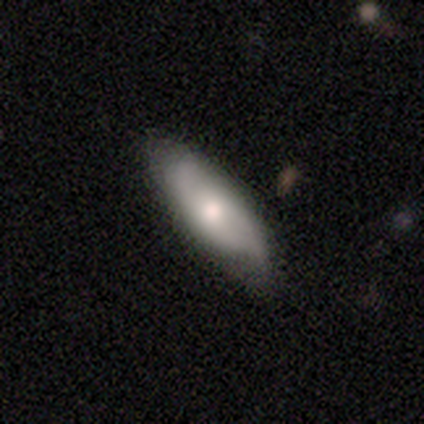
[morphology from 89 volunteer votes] Overall: smooth (51%; featured or disk 46%). How rounded: in between (62%; cigar-shaped 36%). Merging: none (72%).